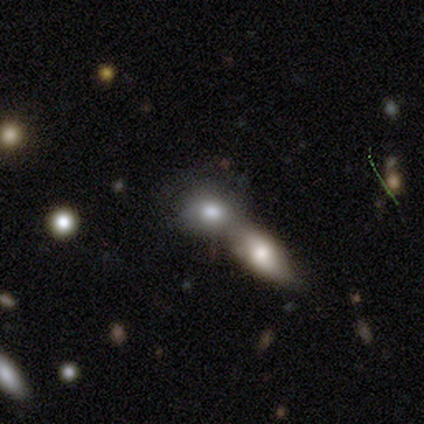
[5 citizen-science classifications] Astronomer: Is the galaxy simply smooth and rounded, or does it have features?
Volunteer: smooth — 100%.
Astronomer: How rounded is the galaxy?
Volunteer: round — 80%.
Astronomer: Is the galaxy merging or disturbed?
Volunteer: merger — 80%.